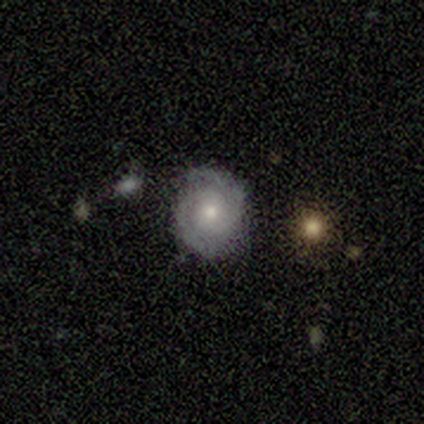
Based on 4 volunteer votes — Morphology: type=featured or disk (75%); edge-on=no (100%); bar=no (100%); spiral arms=no (67%); bulge=large (33%, tied with moderate and small); merging=major disturbance (50%).